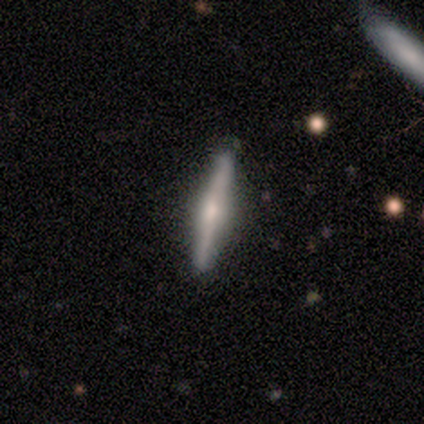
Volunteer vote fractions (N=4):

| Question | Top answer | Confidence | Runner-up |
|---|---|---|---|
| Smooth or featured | smooth | 50% | tied: featured or disk (50%) |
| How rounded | cigar-shaped | 100% | — |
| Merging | none | 100% | — |